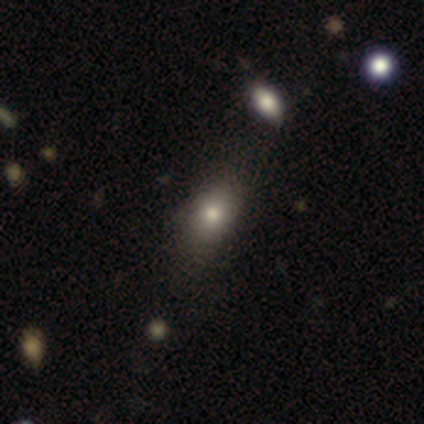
smooth 80%, star or artifact 20%, featured or disk 0%. Down the decision tree: how rounded — round (50%, tied with in between); merging — none (75%).